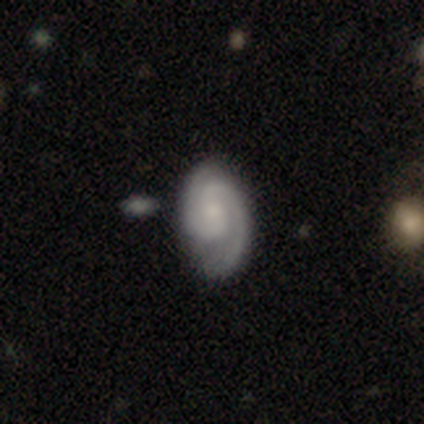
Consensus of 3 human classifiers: This appears to be a featured or disk galaxy (67%) with no bar (100%), 2 (100%) tight (50%, tied with medium) spiral arms (100%) and a moderate central bulge (50%, tied with small). Merging: none (100%).